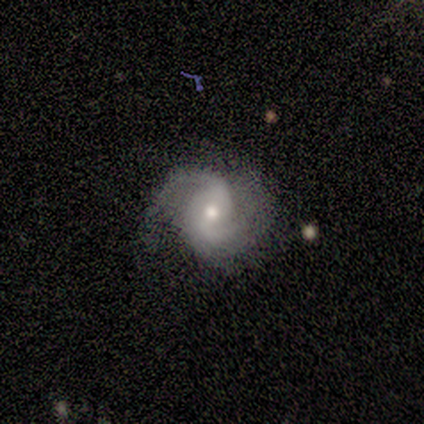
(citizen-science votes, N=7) smooth_or_featured: featured or disk (p=1.00)
disk_edge_on: no (p=1.00)
bar: no (p=0.57) [alt: strong p=0.29]
has_spiral_arms: yes (p=1.00)
spiral_winding: loose (p=0.43) [alt: tight p=0.29]
spiral_arm_count: 2 (p=1.00)
bulge_size: moderate (p=0.71) [alt: small p=0.29]
merging: none (p=0.86) [alt: minor disturbance p=0.14]